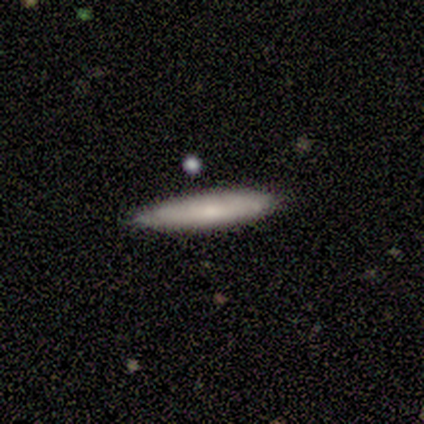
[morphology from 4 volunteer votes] Overall: smooth (75%). How rounded: cigar-shaped (67%; in between 33%). Merging: none (100%).